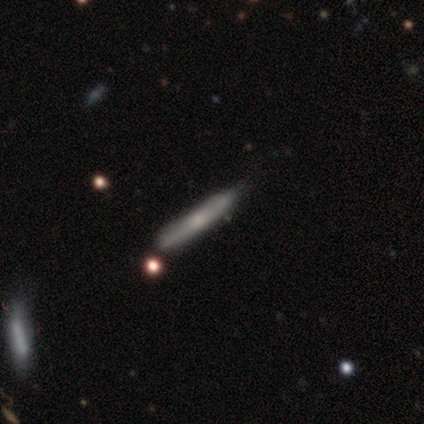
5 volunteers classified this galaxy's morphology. Smooth or featured: smooth — 60% (featured or disk — 20%)
How rounded: cigar-shaped — 67% (in between — 33%)
Merging: none — 100%